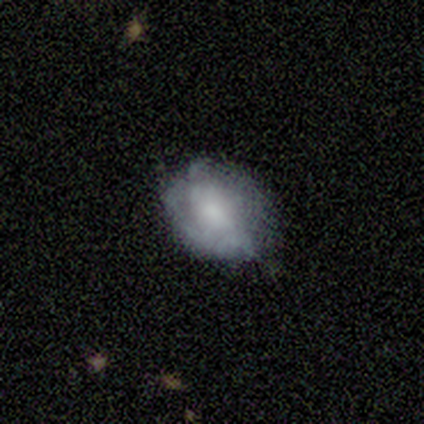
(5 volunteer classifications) Smooth or featured? smooth (80%)
How rounded? round (50%, tied with in between)
Merging? none (80%)